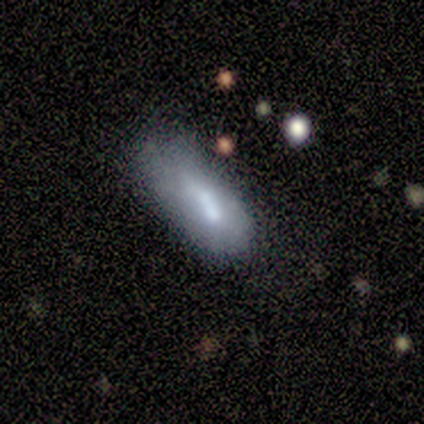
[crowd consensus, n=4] Smooth or featured?
  - smooth: 75% *
  - featured or disk: 25%
  - star or artifact: 0%
How rounded?
  - in between: 100% *
  - round: 0%
  - cigar-shaped: 0%
Merging?
  - none: 50% *
  - minor disturbance: 25%
  - merger: 25%
  - major disturbance: 0%